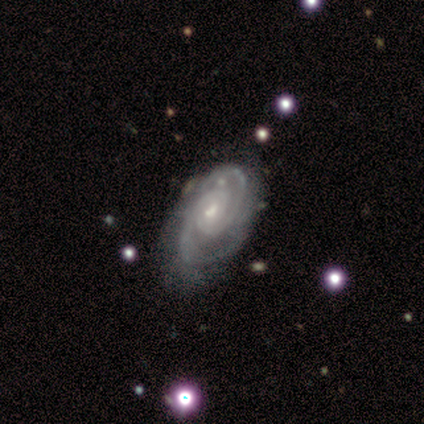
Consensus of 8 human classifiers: Smooth or featured: featured or disk — 88% (smooth — 12%)
Edge-on disk: no — 100%
Bar: no — 57% (weak — 43%)
Spiral arms: yes — 100%
Spiral winding: tight — 43% (tied with medium — 43%)
Spiral arm count: 2 — 43% (3 — 29%)
Bulge size: moderate — 57% (small — 43%)
Merging: none — 62% (minor disturbance — 25%)